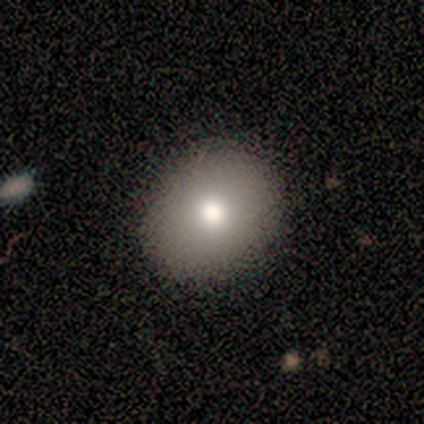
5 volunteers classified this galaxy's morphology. Smooth or featured?
  - smooth: 100% *
  - featured or disk: 0%
  - star or artifact: 0%
How rounded?
  - round: 80% *
  - in between: 20%
  - cigar-shaped: 0%
Merging?
  - none: 100% *
  - minor disturbance: 0%
  - major disturbance: 0%
  - merger: 0%